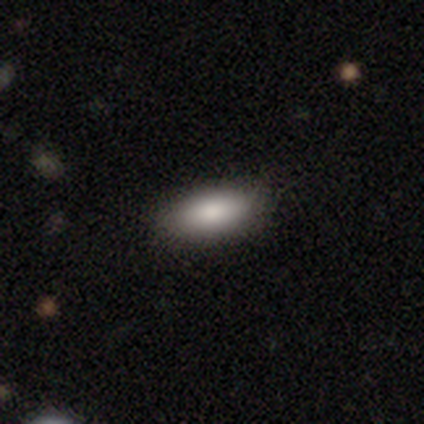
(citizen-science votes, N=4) smooth 50% (tied), star or artifact 50% (tied), featured or disk 0%. Down the decision tree: how rounded — in between (100%); merging — none (50%, tied with minor disturbance).